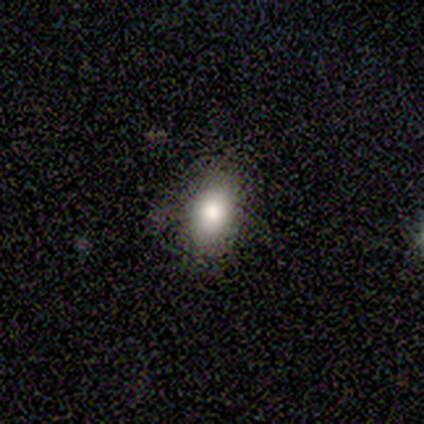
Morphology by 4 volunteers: Smooth or featured?
  - smooth: 75% *
  - star or artifact: 25%
  - featured or disk: 0%
How rounded?
  - in between: 100% *
  - round: 0%
  - cigar-shaped: 0%
Merging?
  - none: 100% *
  - minor disturbance: 0%
  - major disturbance: 0%
  - merger: 0%